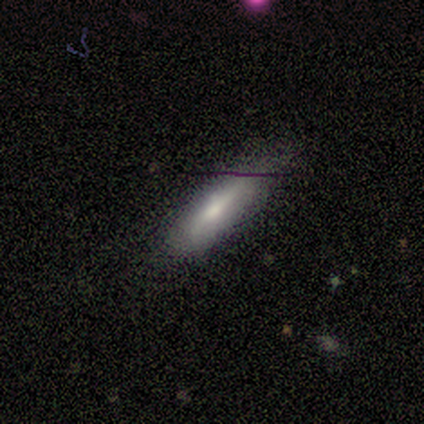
smooth 50% (tied), featured or disk 50% (tied), star or artifact 0%. Down the decision tree: how rounded — in between (100%); merging — none (75%).